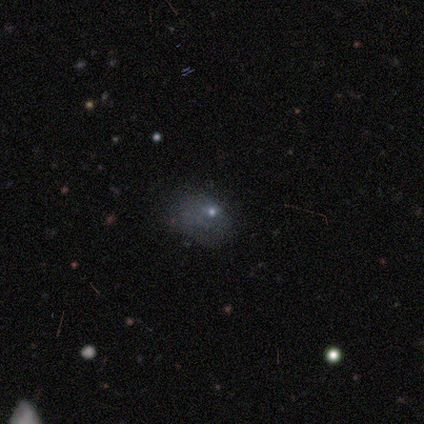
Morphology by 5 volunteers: A smooth galaxy with no disk features (80%) that is in between round and cigar-shaped (75%).

Vote fractions:
- Smooth or featured? smooth: 80% / featured or disk: 20% / star or artifact: 0%
- How rounded? in between: 75% / round: 25% / cigar-shaped: 0%
- Merging? none: 40% (tied) / major disturbance: 40% (tied) / minor disturbance: 20% / merger: 0%